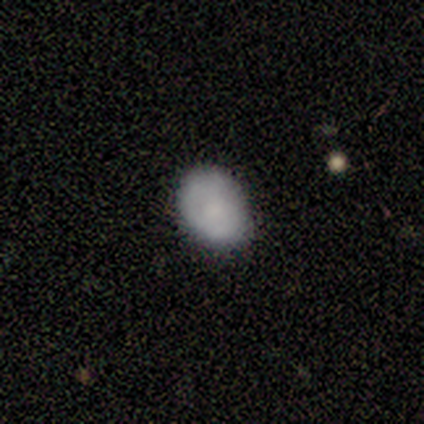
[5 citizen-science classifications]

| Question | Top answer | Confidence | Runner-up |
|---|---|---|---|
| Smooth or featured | smooth | 60% | featured or disk (40%) |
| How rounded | in between | 67% | round (33%) |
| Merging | none | 80% | minor disturbance (20%) |